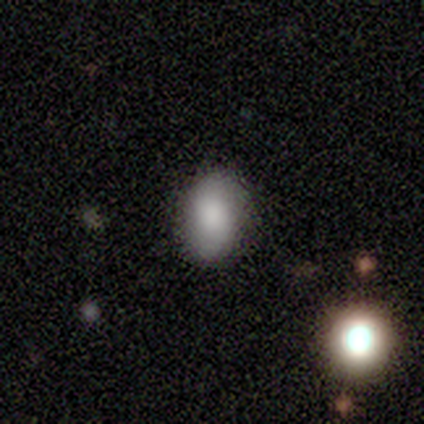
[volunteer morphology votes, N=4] Smooth or featured?
  - smooth: 75% *
  - star or artifact: 25%
  - featured or disk: 0%
How rounded?
  - in between: 100% *
  - round: 0%
  - cigar-shaped: 0%
Merging?
  - none: 100% *
  - minor disturbance: 0%
  - major disturbance: 0%
  - merger: 0%